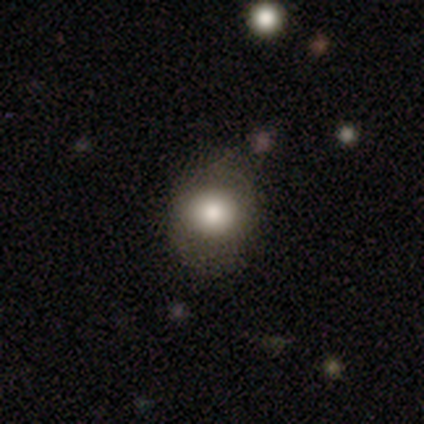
smooth 80%, featured or disk 20%, star or artifact 0%. Down the decision tree: how rounded — in between (75%); merging — none (60%).